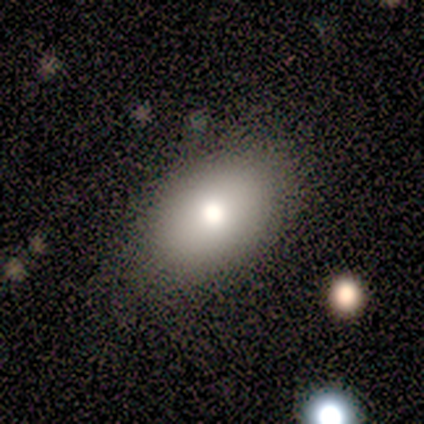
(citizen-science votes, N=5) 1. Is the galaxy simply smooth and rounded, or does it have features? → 80% smooth, 20% star or artifact, 0% featured or disk.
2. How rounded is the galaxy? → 75% in between, 25% round, 0% cigar-shaped.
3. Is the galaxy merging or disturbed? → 100% none, 0% minor disturbance, 0% major disturbance, 0% merger.